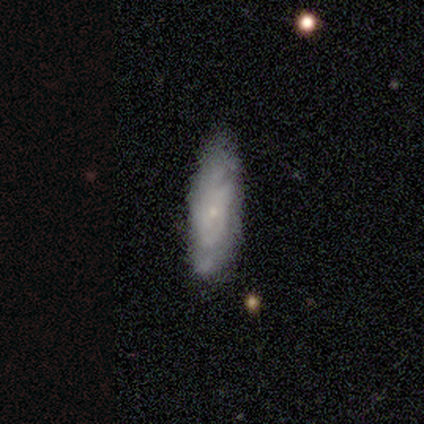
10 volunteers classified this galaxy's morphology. Volunteers were most divided on "merging" (2-way tie): none: 50%, minor disturbance: 50%, major disturbance: 0%, merger: 0%. More confident: spiral arm count — can't tell (100%); bulge size — small (100%); edge-on disk — no (86%); bar — no (83%); spiral winding — tight (75%); smooth or featured — featured or disk (70%); spiral arms — yes (67%).